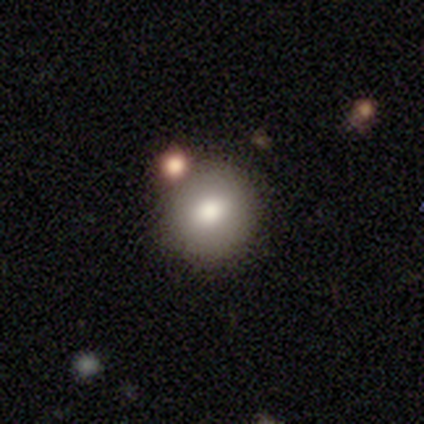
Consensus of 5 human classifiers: A smooth galaxy with no disk features (100%) that is round (80%).

Vote fractions:
- Smooth or featured? smooth: 100% / featured or disk: 0% / star or artifact: 0%
- How rounded? round: 80% / in between: 20% / cigar-shaped: 0%
- Merging? none: 80% / merger: 20% / minor disturbance: 0% / major disturbance: 0%